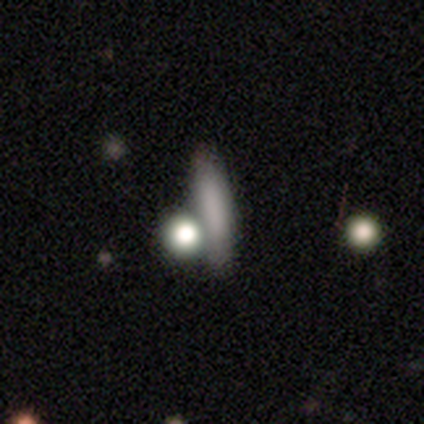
This is clearly a smooth galaxy (100%). How rounded: likely cigar-shaped (75%). Merging: likely none (75%).